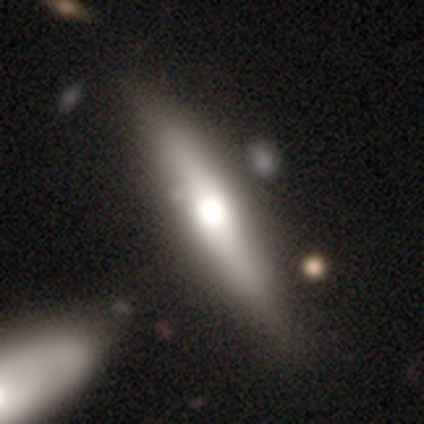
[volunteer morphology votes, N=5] Volunteers were most divided on "edge-on bulge": rounded: 75%, none: 25%, boxy: 0%. More confident: smooth or featured — featured or disk (100%); merging — none (100%); edge-on disk — yes (80%).